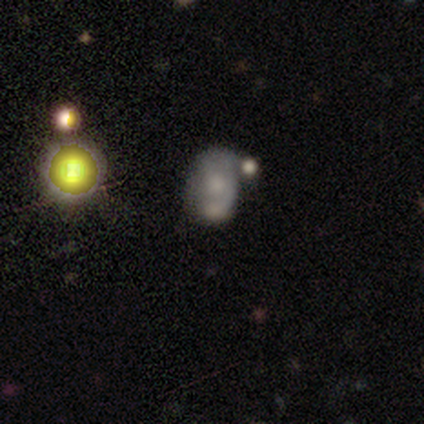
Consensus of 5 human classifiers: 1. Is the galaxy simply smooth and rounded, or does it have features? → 60% featured or disk, 40% smooth, 0% star or artifact.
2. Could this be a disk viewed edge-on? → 100% no, 0% yes.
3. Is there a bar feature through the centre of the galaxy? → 100% no, 0% strong, 0% weak.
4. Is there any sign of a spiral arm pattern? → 67% no, 33% yes.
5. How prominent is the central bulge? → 67% small, 33% large, 0% dominant, 0% moderate, 0% none.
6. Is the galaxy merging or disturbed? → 60% merger, 40% minor disturbance, 0% none, 0% major disturbance.